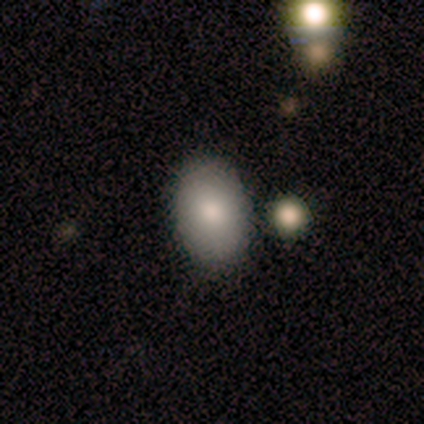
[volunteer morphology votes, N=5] Overall: smooth (100%). How rounded: in between (100%). Merging: none (100%).